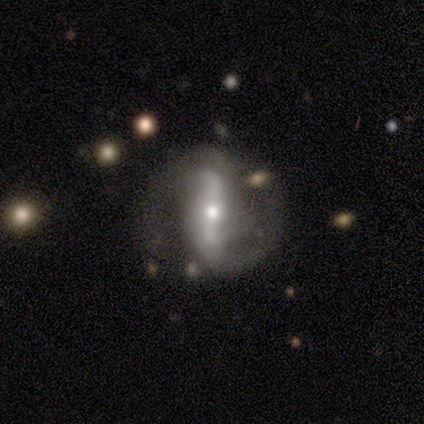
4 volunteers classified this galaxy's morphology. Smooth or featured?
  - featured or disk: 75% *
  - smooth: 25%
  - star or artifact: 0%
Edge-on disk?
  - no: 100% *
  - yes: 0%
Bar?
  - strong: 67% *
  - weak: 33%
  - no: 0%
Spiral arms?
  - yes: 67% *
  - no: 33%
Spiral winding?
  - medium: 100% *
  - tight: 0%
  - loose: 0%
Spiral arm count?
  - 2: 50% * (tied)
  - can't tell: 50% * (tied)
  - 1: 0%
  - 3: 0%
  - 4: 0%
  - more than 4: 0%
Bulge size?
  - small: 100% *
  - dominant: 0%
  - large: 0%
  - moderate: 0%
  - none: 0%
Merging?
  - none: 50% *
  - minor disturbance: 25%
  - major disturbance: 25%
  - merger: 0%